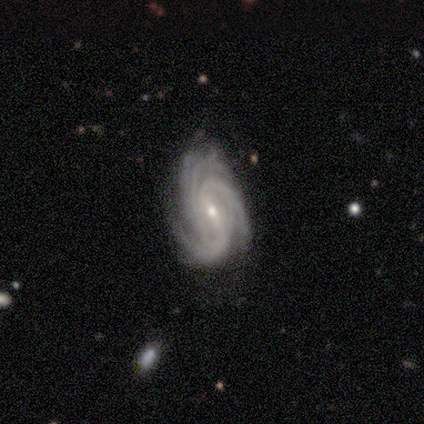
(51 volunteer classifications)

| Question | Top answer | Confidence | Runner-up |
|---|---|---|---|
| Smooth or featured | featured or disk | 92% | smooth (4%) |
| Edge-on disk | no | 98% | yes (2%) |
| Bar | weak | 48% | strong (30%) |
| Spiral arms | yes | 100% | — |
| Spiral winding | tight | 74% | medium (26%) |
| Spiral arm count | more than 4 | 30% | 3 (26%) |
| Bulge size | small | 61% | moderate (30%) |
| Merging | none | 61% | minor disturbance (29%) |